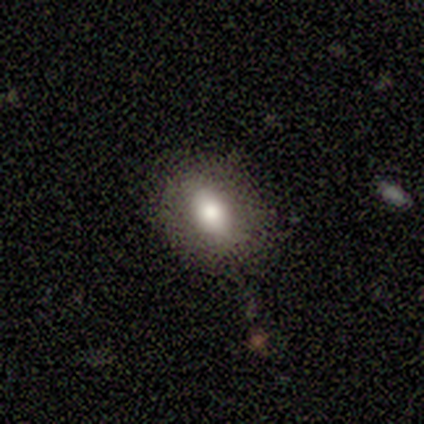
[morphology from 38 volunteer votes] Smooth or featured? smooth (74%)
How rounded? in between (71%)
Merging? none (76%)